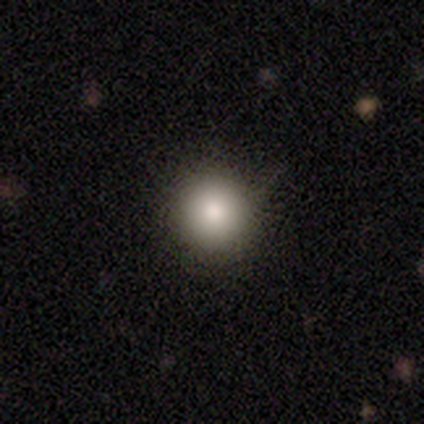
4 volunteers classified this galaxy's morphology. Q: Smooth or featured?
A: smooth (75%); runner-up: star or artifact (25%)
Q: How rounded?
A: round (67%); runner-up: in between (33%)
Q: Merging?
A: none (100%)